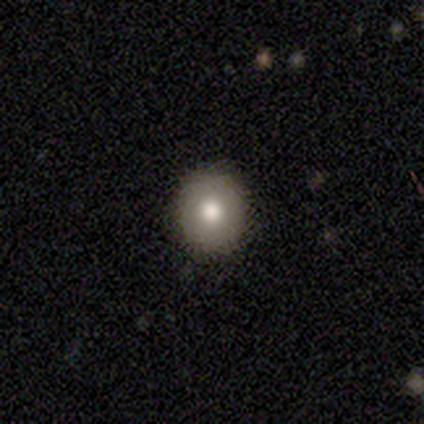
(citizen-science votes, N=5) Morphology: type=smooth (100%); roundness=round (100%); merging=none (100%).